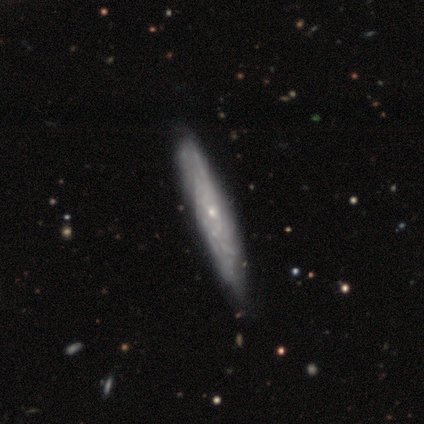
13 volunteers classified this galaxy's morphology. featured or disk 77%, smooth 23%, star or artifact 0%. Down the decision tree: edge-on disk — yes (50%, tied with no); edge-on bulge — none (80%); merging — none (23%, tied with minor disturbance).